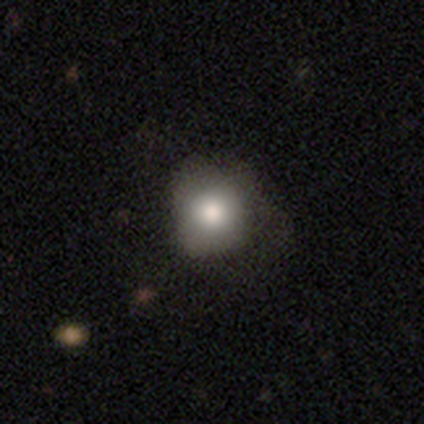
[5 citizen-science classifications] This is clearly a smooth galaxy (100%). How rounded: clearly round (80%). Merging: likely none (60%).